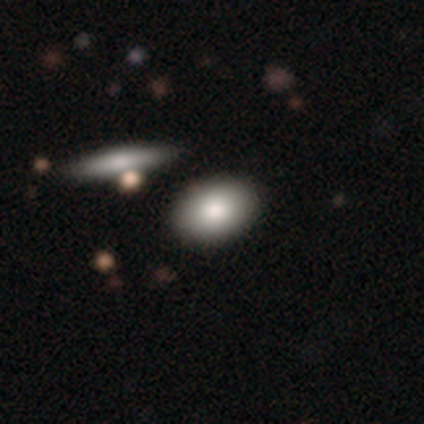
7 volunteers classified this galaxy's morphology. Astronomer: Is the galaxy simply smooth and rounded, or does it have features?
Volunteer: smooth — 57%.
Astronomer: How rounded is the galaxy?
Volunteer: in between — 100%.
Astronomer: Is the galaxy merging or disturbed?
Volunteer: none — 100%.